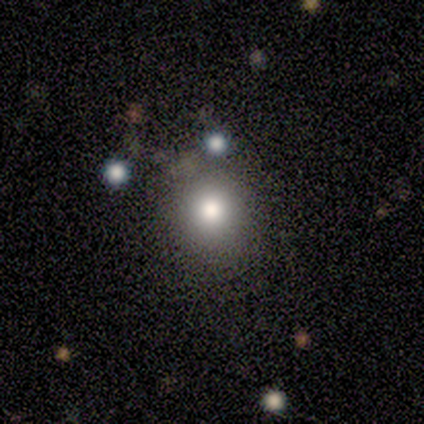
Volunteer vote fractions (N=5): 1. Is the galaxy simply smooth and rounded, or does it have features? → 80% smooth, 20% featured or disk, 0% star or artifact.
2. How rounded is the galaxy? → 100% round, 0% in between, 0% cigar-shaped.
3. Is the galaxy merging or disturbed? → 80% none, 20% merger, 0% minor disturbance, 0% major disturbance.